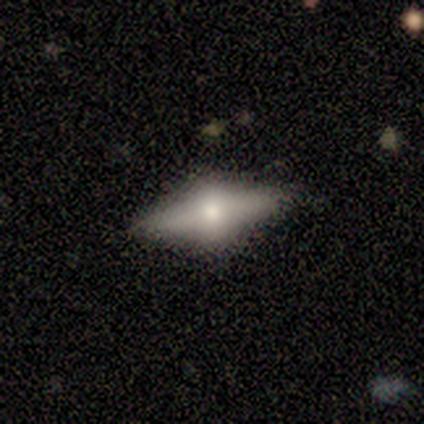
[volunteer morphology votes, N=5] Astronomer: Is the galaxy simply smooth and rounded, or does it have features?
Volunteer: featured or disk — 80%.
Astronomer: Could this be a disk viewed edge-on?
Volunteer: yes — 100%.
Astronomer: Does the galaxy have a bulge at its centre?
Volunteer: rounded — 100%.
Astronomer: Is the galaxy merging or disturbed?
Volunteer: none — 100%.